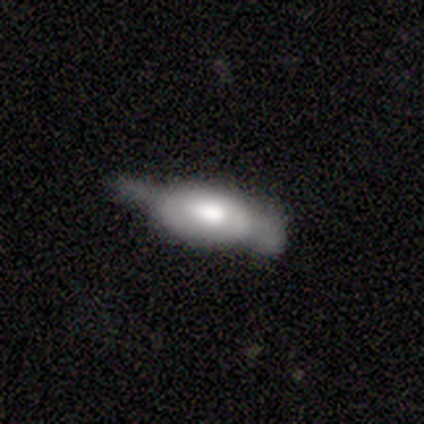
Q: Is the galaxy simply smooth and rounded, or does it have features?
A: featured or disk — 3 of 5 (60%).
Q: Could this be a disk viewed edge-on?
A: yes — 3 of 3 (100%).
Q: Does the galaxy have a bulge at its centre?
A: boxy — 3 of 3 (100%).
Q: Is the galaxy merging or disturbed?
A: none — 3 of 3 (100%).